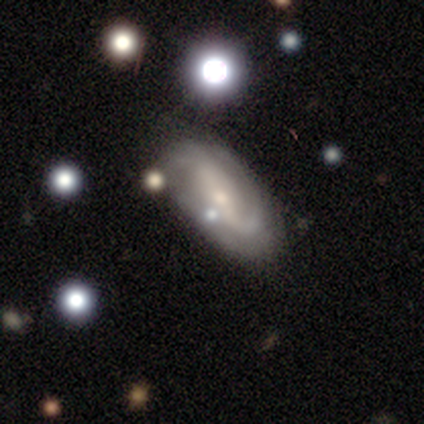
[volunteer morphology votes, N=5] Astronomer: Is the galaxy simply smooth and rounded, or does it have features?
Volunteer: featured or disk — 100%.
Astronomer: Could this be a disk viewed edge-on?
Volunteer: no — 100%.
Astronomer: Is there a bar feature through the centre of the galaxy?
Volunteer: strong — 60%.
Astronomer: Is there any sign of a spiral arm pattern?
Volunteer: yes — 80%.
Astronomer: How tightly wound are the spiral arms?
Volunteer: medium — 50%, tied with loose at 50%.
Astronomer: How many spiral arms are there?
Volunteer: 2 — 75%.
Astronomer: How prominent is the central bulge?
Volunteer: small — 60% (runner-up: moderate, 40%).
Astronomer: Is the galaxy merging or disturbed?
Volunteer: none — 100%.